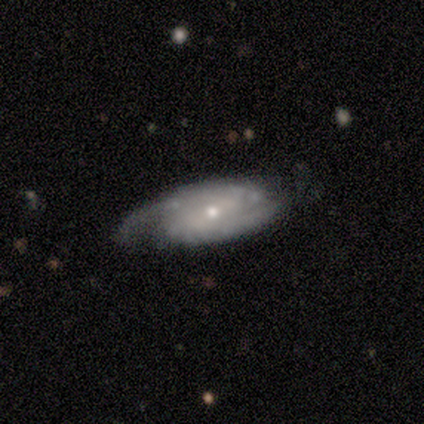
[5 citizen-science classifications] Smooth or featured? 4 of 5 (80%) said featured or disk. Edge-on disk? 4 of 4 (100%) said no. Bar? 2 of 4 (50%, tied with no) said weak. Spiral arms? 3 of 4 (75%) said yes. Spiral winding? 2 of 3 (67%) said medium. Spiral arm count? 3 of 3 (100%) said 2. Bulge size? 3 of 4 (75%) said small. Merging? 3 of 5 (60%) said minor disturbance.